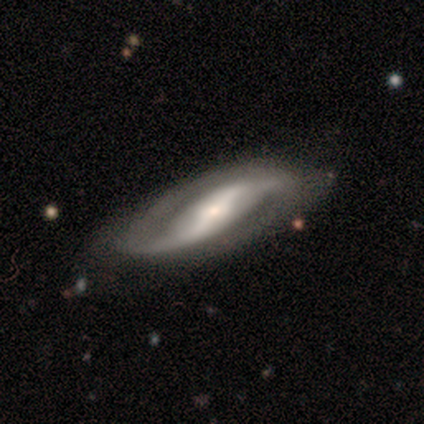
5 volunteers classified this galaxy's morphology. type=featured or disk (80%); edge-on=no (100%); bar=strong (75%); spiral arms=yes (100%); winding=loose (75%); arm count=2 (100%); bulge=small (75%); merging=none (60%).